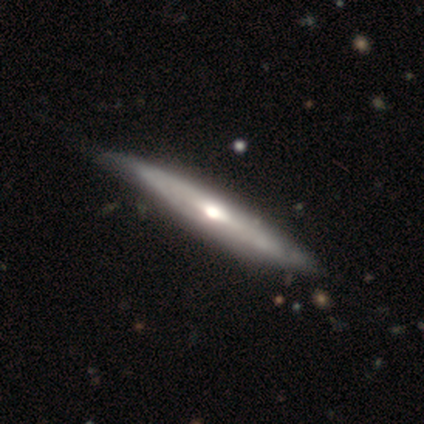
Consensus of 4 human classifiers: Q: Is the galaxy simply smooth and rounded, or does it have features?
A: featured or disk — 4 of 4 (100%).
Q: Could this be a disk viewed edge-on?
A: yes — 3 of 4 (75%).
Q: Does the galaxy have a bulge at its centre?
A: rounded — 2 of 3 (67%).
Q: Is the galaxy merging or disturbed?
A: none — 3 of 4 (75%).